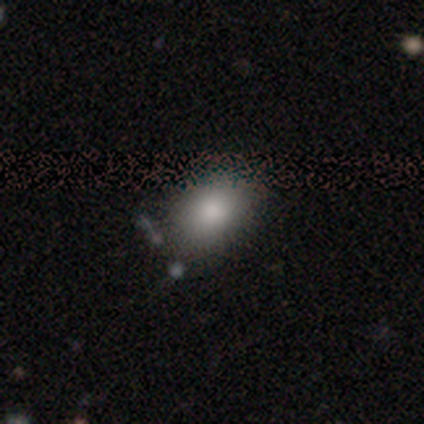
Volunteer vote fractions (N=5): Q: Smooth or featured?
A: smooth (80%); runner-up: star or artifact (20%)
Q: How rounded?
A: in between (75%); runner-up: round (25%)
Q: Merging?
A: none (50%); tied with: minor disturbance (50%)